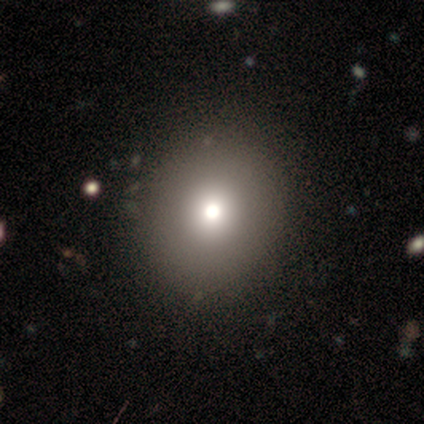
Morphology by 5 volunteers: smooth-or-featured: smooth: 60% | star or artifact: 40% | featured or disk: 0%
  how-rounded: round: 100% | in between: 0% | cigar-shaped: 0%
  merging: none: 67% | major disturbance: 33% | minor disturbance: 0% | merger: 0%